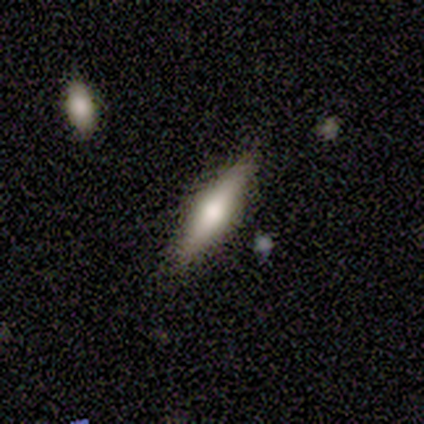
featured or disk 60%, smooth 40%, star or artifact 0%. Down the decision tree: edge-on disk — yes (100%); edge-on bulge — rounded (100%); merging — none (100%).